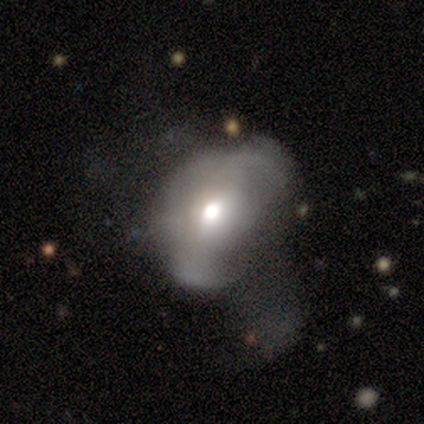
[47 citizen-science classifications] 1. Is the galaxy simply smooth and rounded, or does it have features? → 49% smooth, 45% featured or disk, 6% star or artifact.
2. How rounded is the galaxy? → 74% in between, 26% round, 0% cigar-shaped.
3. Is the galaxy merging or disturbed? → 55% major disturbance, 23% none, 18% minor disturbance, 5% merger.